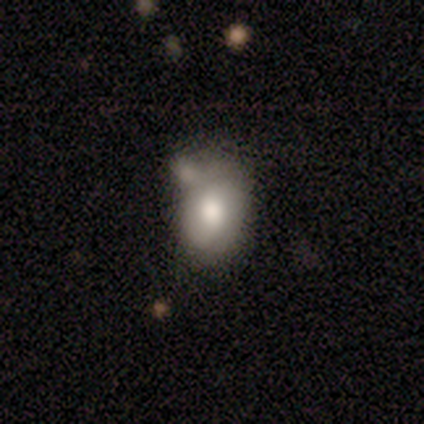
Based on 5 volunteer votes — smooth-or-featured: smooth: 60% | featured or disk: 20% | star or artifact: 20%
  how-rounded: in between: 67% | round: 33% | cigar-shaped: 0%
  merging: none: 50% | minor disturbance: 25% | merger: 25% | major disturbance: 0%